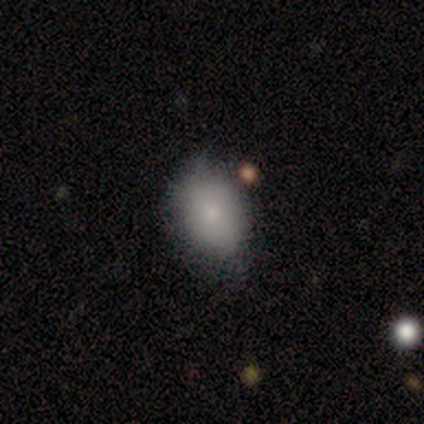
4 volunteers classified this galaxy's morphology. Smooth or featured: smooth — 100%
How rounded: in between — 75% (round — 25%)
Merging: none — 50% (minor disturbance — 25%)